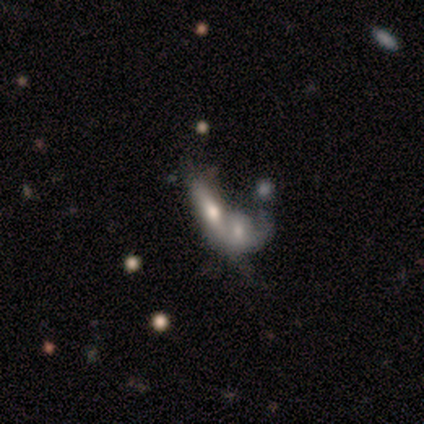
Q: Smooth or featured?
A: featured or disk (60%); runner-up: smooth (40%)
Q: Edge-on disk?
A: no (100%)
Q: Bar?
A: no (100%)
Q: Spiral arms?
A: no (67%); runner-up: yes (33%)
Q: Bulge size?
A: moderate (67%); runner-up: none (33%)
Q: Merging?
A: merger (100%)